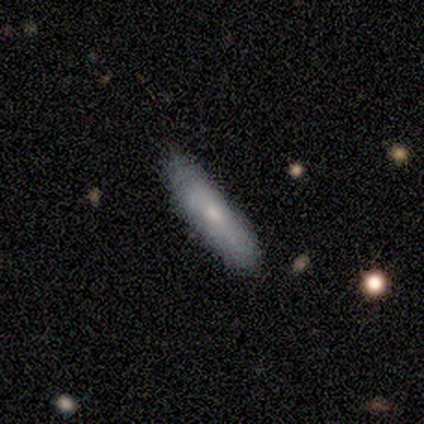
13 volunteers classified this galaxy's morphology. This is likely a smooth galaxy (69%). How rounded: possibly cigar-shaped (56%). Merging: clearly none (85%).